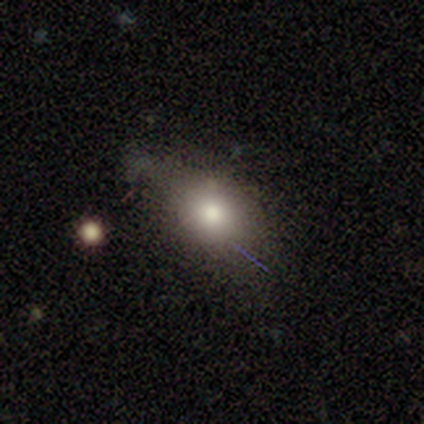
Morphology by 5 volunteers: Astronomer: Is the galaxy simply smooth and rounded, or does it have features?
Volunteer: smooth — 80%.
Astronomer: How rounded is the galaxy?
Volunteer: round — 50%, tied with in between at 50%.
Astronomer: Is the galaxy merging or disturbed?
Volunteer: none — 50%.